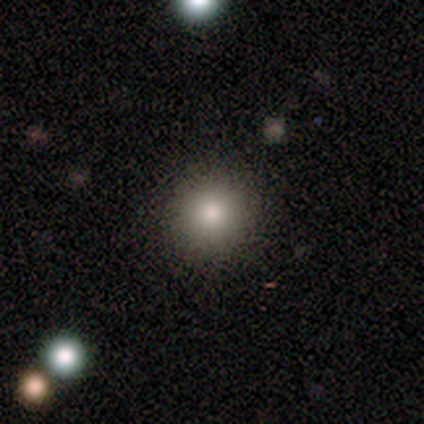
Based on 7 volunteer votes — smooth_or_featured: smooth (p=1.00)
how_rounded: round (p=0.86) [alt: in between p=0.14]
merging: none (p=1.00)